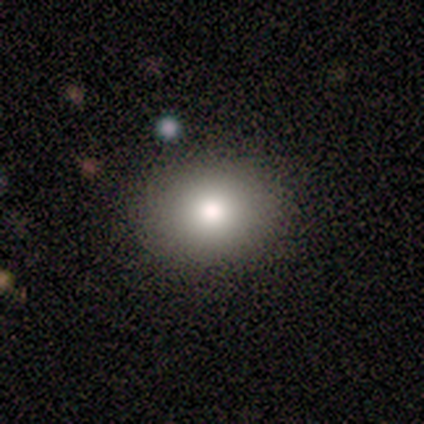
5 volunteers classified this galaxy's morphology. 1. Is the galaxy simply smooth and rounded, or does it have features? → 100% smooth, 0% featured or disk, 0% star or artifact.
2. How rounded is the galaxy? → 60% round, 40% in between, 0% cigar-shaped.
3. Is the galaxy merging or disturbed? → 100% none, 0% minor disturbance, 0% major disturbance, 0% merger.